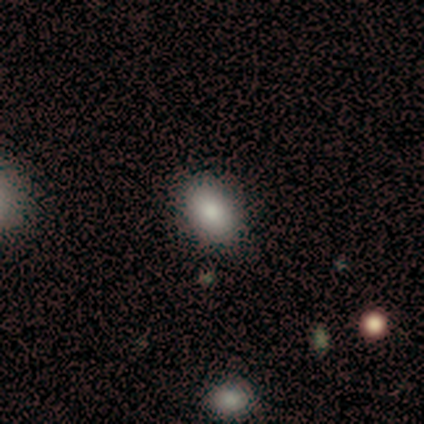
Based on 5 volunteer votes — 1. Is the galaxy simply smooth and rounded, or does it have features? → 40% featured or disk (tied), 40% star or artifact (tied), 20% smooth.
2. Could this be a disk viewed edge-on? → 100% no, 0% yes.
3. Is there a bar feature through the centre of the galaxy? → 100% no, 0% strong, 0% weak.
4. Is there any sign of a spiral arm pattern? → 100% no, 0% yes.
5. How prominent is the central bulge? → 50% moderate (tied), 50% small (tied), 0% dominant, 0% large, 0% none.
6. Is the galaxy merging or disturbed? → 100% none, 0% minor disturbance, 0% major disturbance, 0% merger.